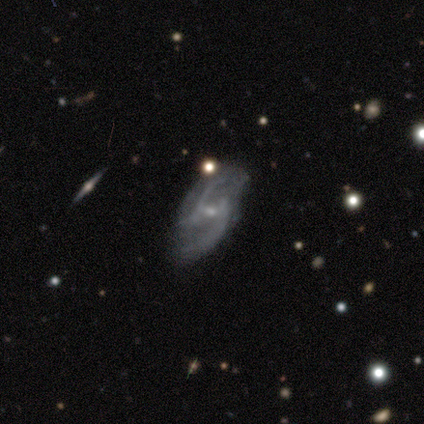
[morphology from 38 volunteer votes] Smooth or featured: featured or disk — 87% (star or artifact — 8%)
Edge-on disk: no — 100%
Bar: weak — 58% (no — 30%)
Spiral arms: yes — 94% (no — 6%)
Spiral winding: loose — 61% (tight — 19%)
Spiral arm count: 2 — 94% (can't tell — 6%)
Bulge size: small — 79% (moderate — 18%)
Merging: none — 60% (major disturbance — 20%)